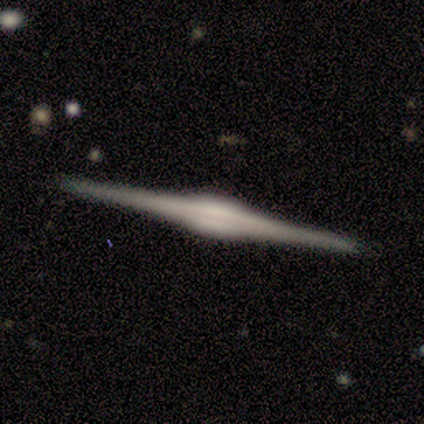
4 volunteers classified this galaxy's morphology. This appears to be a featured or disk galaxy (75%) viewed edge-on (100%) with a rounded central bulge (100%). Merging: none (75%).